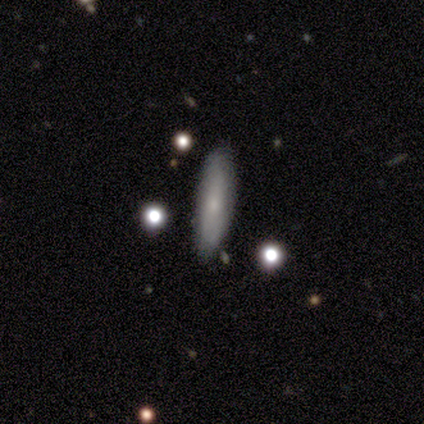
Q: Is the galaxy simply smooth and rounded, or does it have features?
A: smooth — 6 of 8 (75%).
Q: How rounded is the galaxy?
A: cigar-shaped — 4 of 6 (67%).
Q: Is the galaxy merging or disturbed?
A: none — 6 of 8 (75%).